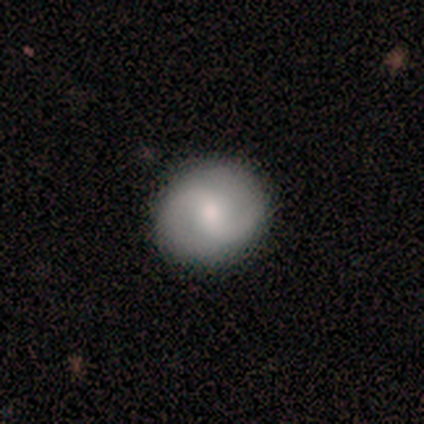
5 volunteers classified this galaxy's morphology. featured or disk 60%, smooth 40%, star or artifact 0%. Down the decision tree: edge-on disk — no (100%); bar — no (100%); spiral arms — yes (100%); spiral arm count — 2 (100%); spiral winding — loose (67%); bulge size — large (33%, tied with moderate and small); merging — none (100%).